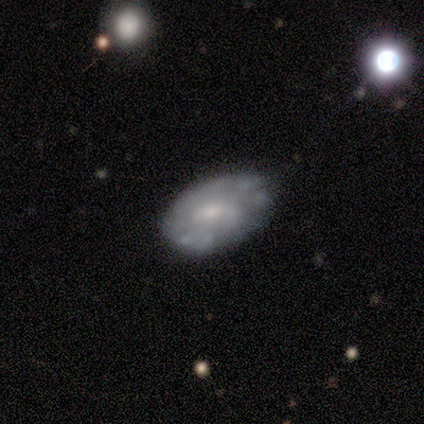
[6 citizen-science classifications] Smooth or featured? smooth (83%)
How rounded? in between (100%)
Merging? none (67%)